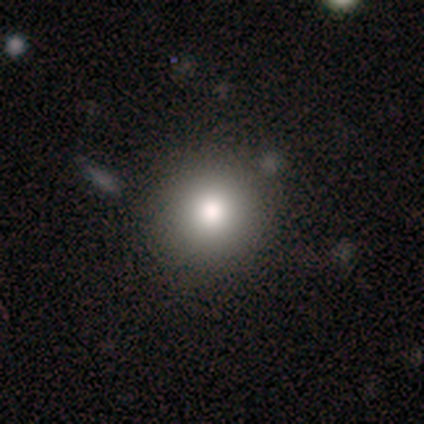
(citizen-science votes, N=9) Volunteers were most divided on "how rounded": round: 89%, in between: 11%, cigar-shaped: 0%. More confident: smooth or featured — smooth (100%); merging — none (89%).